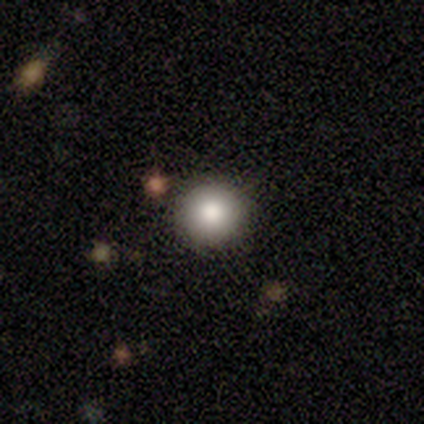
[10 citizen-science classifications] Smooth or featured?
  - smooth: 80% *
  - featured or disk: 10%
  - star or artifact: 10%
How rounded?
  - round: 100% *
  - in between: 0%
  - cigar-shaped: 0%
Merging?
  - none: 100% *
  - minor disturbance: 0%
  - major disturbance: 0%
  - merger: 0%